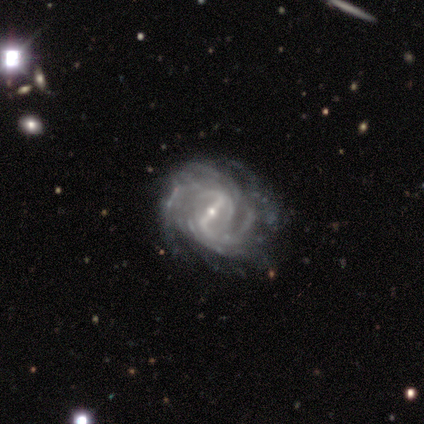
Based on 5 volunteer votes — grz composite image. It shows a featured or disk galaxy (100%) with a strong bar (60%), 4 (40%) tight (60%) spiral arms (100%) and a small central bulge (100%). Merging: none (60%).